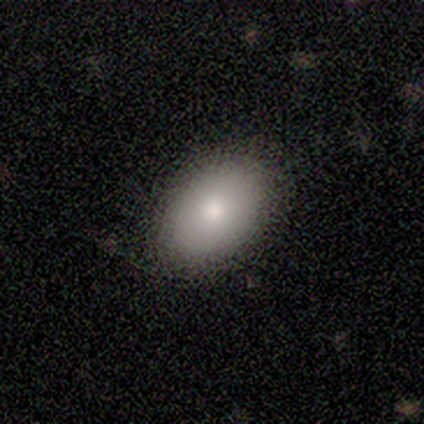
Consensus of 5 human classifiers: Volunteers were most divided on "smooth or featured": smooth: 60%, featured or disk: 40%, star or artifact: 0%. More confident: how rounded — in between (67%); merging — none (60%).